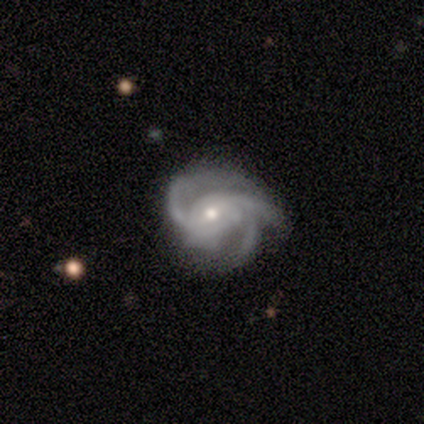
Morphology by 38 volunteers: Q: Smooth or featured?
A: featured or disk (84%); runner-up: star or artifact (11%)
Q: Edge-on disk?
A: no (97%); runner-up: yes (3%)
Q: Bar?
A: no (58%); runner-up: weak (23%)
Q: Spiral arms?
A: yes (100%)
Q: Spiral winding?
A: medium (48%); runner-up: tight (35%)
Q: Spiral arm count?
A: 3 (81%); runner-up: can't tell (13%)
Q: Bulge size?
A: small (65%); runner-up: moderate (32%)
Q: Merging?
A: none (59%); runner-up: major disturbance (21%)